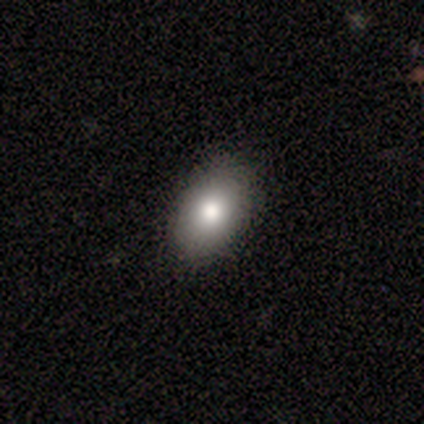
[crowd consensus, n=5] A smooth galaxy with no disk features (100%) that is in between round and cigar-shaped (80%).

Vote fractions:
- Smooth or featured? smooth: 100% / featured or disk: 0% / star or artifact: 0%
- How rounded? in between: 80% / round: 20% / cigar-shaped: 0%
- Merging? none: 100% / minor disturbance: 0% / major disturbance: 0% / merger: 0%